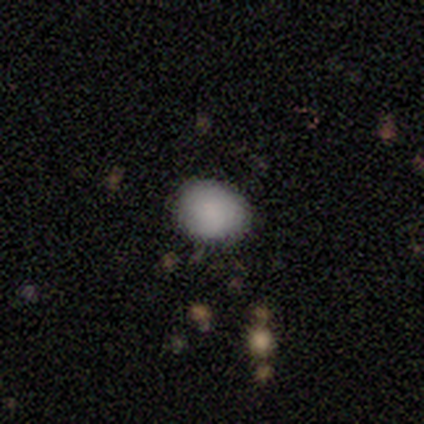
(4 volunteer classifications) Overall: smooth (75%). How rounded: round (67%; in between 33%). Merging: none (100%).